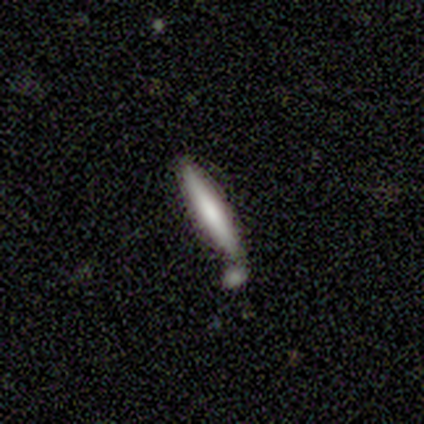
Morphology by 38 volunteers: smooth_or_featured: smooth (p=0.68) [alt: featured or disk p=0.26]
how_rounded: cigar-shaped (p=0.96) [alt: in between p=0.04]
merging: none (p=0.56) [alt: minor disturbance p=0.25]